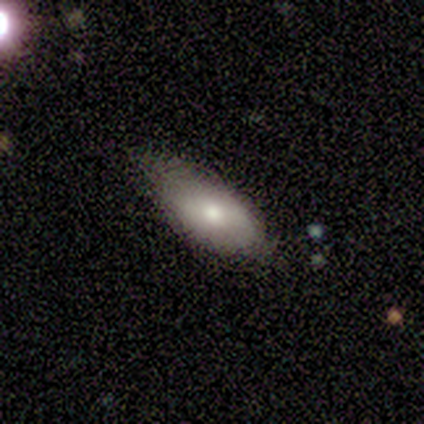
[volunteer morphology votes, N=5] Smooth or featured?
  - smooth: 80% *
  - featured or disk: 20%
  - star or artifact: 0%
How rounded?
  - in between: 100% *
  - round: 0%
  - cigar-shaped: 0%
Merging?
  - none: 60% *
  - minor disturbance: 40%
  - major disturbance: 0%
  - merger: 0%